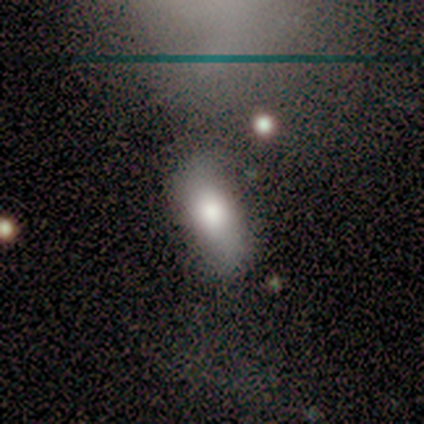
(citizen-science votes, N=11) smooth 64%, star or artifact 36%, featured or disk 0%. Down the decision tree: how rounded — in between (86%); merging — none (57%).